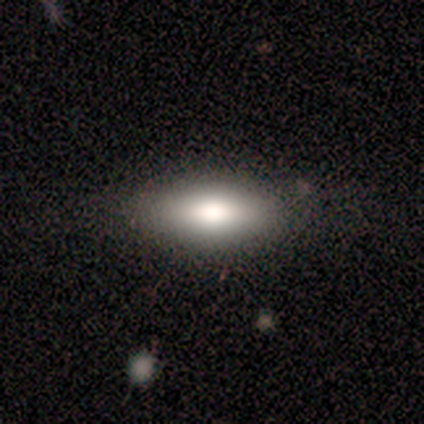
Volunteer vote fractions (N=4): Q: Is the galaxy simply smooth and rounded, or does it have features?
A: smooth — 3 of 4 (75%).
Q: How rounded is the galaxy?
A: in between — 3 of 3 (100%).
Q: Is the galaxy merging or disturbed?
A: none — 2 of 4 (50%).